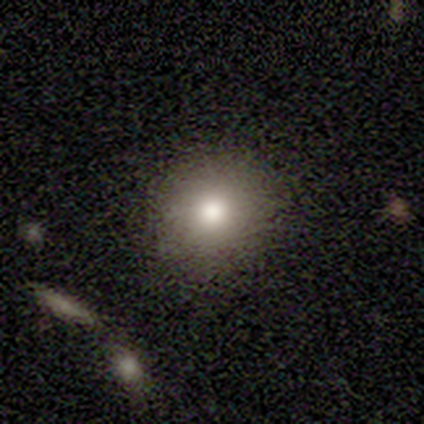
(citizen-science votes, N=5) Smooth or featured: smooth — 60% (featured or disk — 40%)
How rounded: round — 100%
Merging: none — 80% (minor disturbance — 20%)